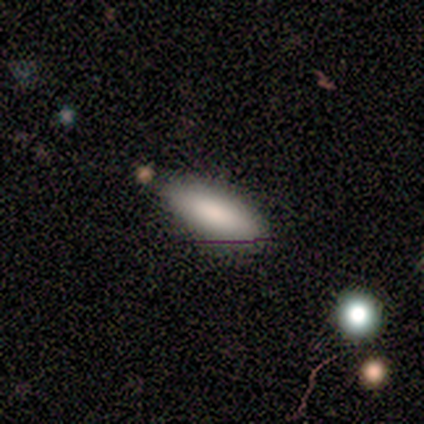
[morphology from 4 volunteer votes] Smooth or featured: smooth — 75% (featured or disk — 25%)
How rounded: in between — 67% (cigar-shaped — 33%)
Merging: none — 50% (tied with minor disturbance — 50%)